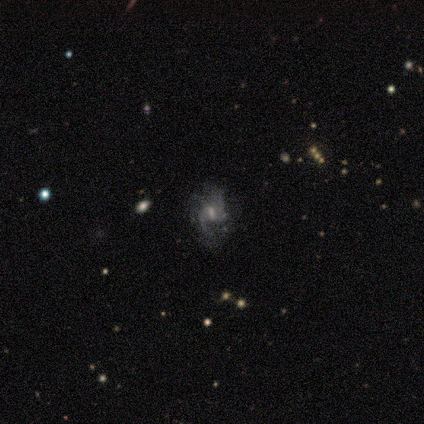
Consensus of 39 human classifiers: smooth_or_featured: featured or disk (p=0.82) [alt: star or artifact p=0.15]
disk_edge_on: no (p=0.97) [alt: yes p=0.03]
bar: weak (p=0.45) [alt: strong p=0.29]
has_spiral_arms: yes (p=0.81) [alt: no p=0.19]
spiral_winding: medium (p=0.60) [alt: loose p=0.28]
spiral_arm_count: can't tell (p=0.48) [alt: 2 p=0.28]
bulge_size: small (p=0.42) [alt: moderate p=0.32]
merging: none (p=0.58) [alt: minor disturbance p=0.18]